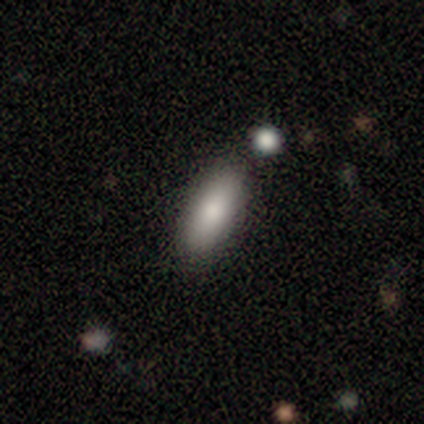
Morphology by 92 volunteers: Smooth or featured?
  - smooth: 83% *
  - featured or disk: 10%
  - star or artifact: 8%
How rounded?
  - in between: 74% *
  - cigar-shaped: 26%
  - round: 0%
Merging?
  - none: 81% *
  - minor disturbance: 14%
  - merger: 5%
  - major disturbance: 0%